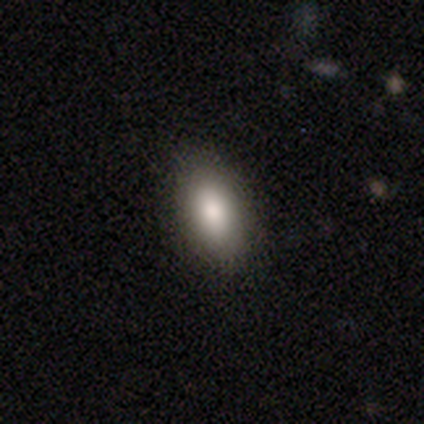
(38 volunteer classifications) smooth-or-featured: smooth: 79% | featured or disk: 18% | star or artifact: 3%
  how-rounded: in between: 90% | cigar-shaped: 7% | round: 3%
  merging: none: 89% | minor disturbance: 8% | merger: 3% | major disturbance: 0%